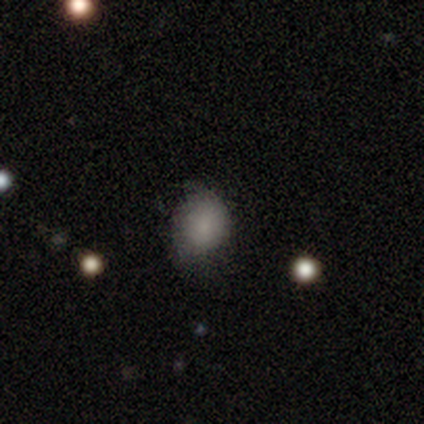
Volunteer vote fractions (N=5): This appears to be a smooth galaxy with no disk features (80%) that is round (75%). Merging: none (80%).